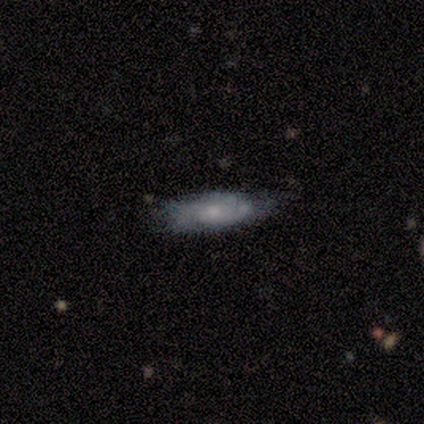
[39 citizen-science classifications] Morphology: type=featured or disk (62%); edge-on=no (79%); bar=no (79%); spiral arms=yes (100%); winding=tight (63%); arm count=can't tell (47%); bulge=small (63%); merging=none (67%).